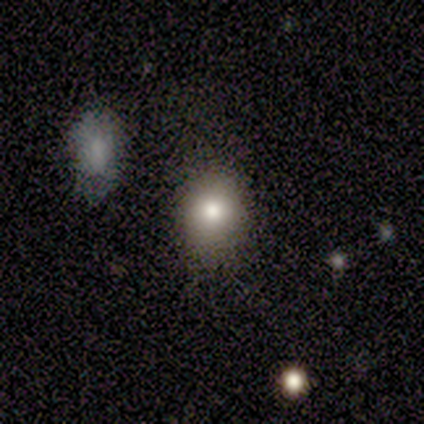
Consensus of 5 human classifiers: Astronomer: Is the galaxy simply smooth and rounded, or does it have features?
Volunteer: smooth — 80%.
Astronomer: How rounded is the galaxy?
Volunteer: round — 75%.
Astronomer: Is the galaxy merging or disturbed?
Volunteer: none — 50%, tied with minor disturbance at 50%.